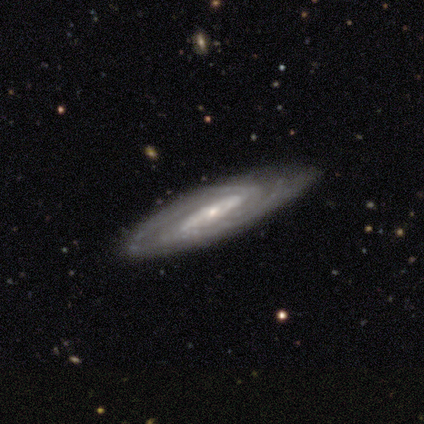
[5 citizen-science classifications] Smooth or featured: featured or disk — 100%
Edge-on disk: no — 100%
Bar: strong — 60% (weak — 20%)
Spiral arms: yes — 100%
Spiral winding: tight — 60% (medium — 40%)
Spiral arm count: can't tell — 40% (2 — 20%)
Bulge size: small — 80% (moderate — 20%)
Merging: none — 80% (minor disturbance — 20%)